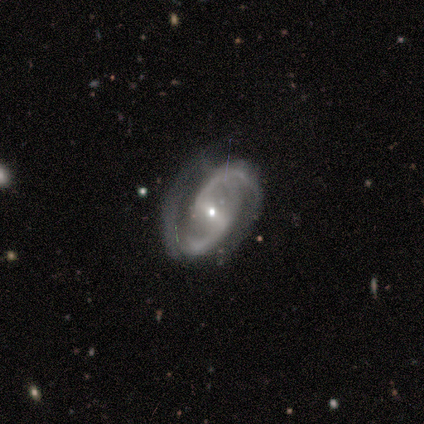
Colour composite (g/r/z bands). It shows a featured or disk galaxy (100%) with a strong bar (100%), 2 (100%) medium (100%) spiral arms (80%) and a small central bulge (100%). Merging: none (80%).